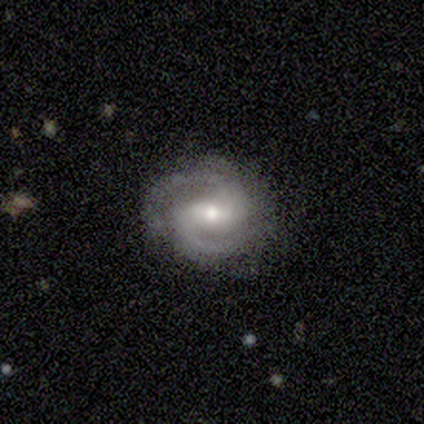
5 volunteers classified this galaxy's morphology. Smooth or featured? featured or disk (100%)
Edge-on disk? no (100%)
Bar? weak (80%)
Spiral arms? yes (100%)
Spiral winding? tight (40%, tied with medium)
Spiral arm count? 2 (60%)
Bulge size? moderate (100%)
Merging? none (80%)